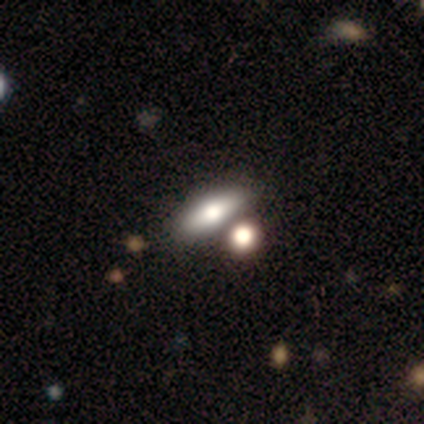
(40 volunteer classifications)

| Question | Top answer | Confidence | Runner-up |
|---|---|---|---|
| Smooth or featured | smooth | 65% | featured or disk (28%) |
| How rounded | in between | 69% | cigar-shaped (23%) |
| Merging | none | 46% | merger (38%) |